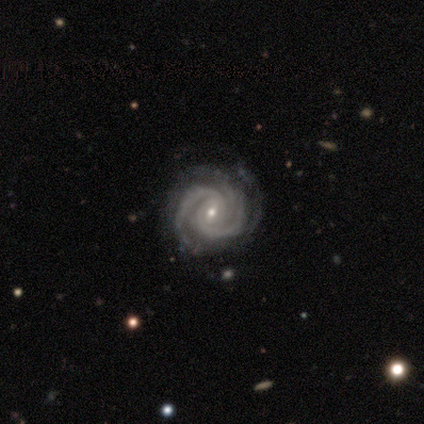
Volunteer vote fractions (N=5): Smooth or featured?
  - featured or disk: 100% *
  - smooth: 0%
  - star or artifact: 0%
Edge-on disk?
  - no: 100% *
  - yes: 0%
Bar?
  - weak: 40% * (tied)
  - no: 40% * (tied)
  - strong: 20%
Spiral arms?
  - yes: 100% *
  - no: 0%
Spiral winding?
  - tight: 100% *
  - medium: 0%
  - loose: 0%
Spiral arm count?
  - 2: 60% *
  - 3: 40%
  - 1: 0%
  - 4: 0%
  - more than 4: 0%
  - can't tell: 0%
Bulge size?
  - small: 80% *
  - moderate: 20%
  - dominant: 0%
  - large: 0%
  - none: 0%
Merging?
  - none: 60% *
  - minor disturbance: 40%
  - major disturbance: 0%
  - merger: 0%